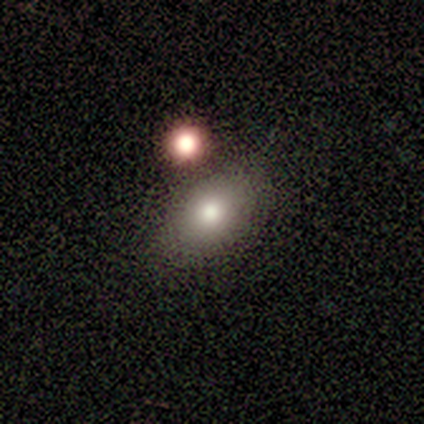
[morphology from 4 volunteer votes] smooth 100%, featured or disk 0%, star or artifact 0%. Down the decision tree: how rounded — in between (100%); merging — none (75%).